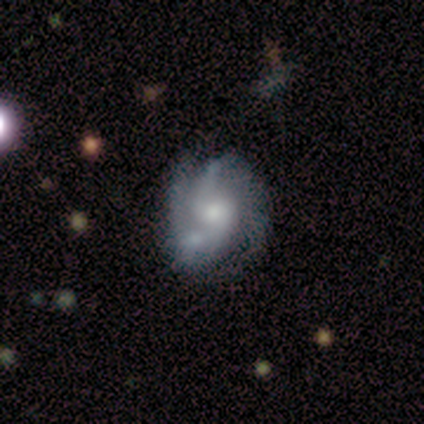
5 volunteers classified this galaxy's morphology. A featured or disk galaxy (60%) with no bar (100%), 2 (33%, tied with 3 and can't tell) tight (67%) spiral arms (100%) and a moderate central bulge (100%). Merging: merger (50%).